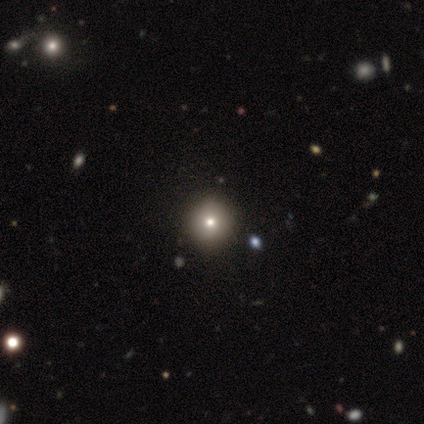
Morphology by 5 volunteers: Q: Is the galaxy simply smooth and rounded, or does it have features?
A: smooth — 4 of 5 (80%).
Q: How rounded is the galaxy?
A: round — 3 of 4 (75%).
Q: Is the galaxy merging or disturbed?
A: none — 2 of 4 (50%).